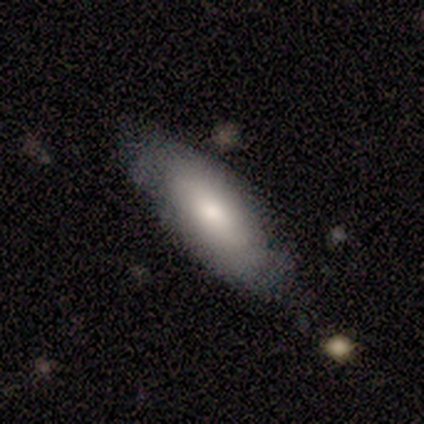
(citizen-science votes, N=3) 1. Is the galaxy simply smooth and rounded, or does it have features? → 33% smooth (tied), 33% featured or disk (tied), 33% star or artifact (tied).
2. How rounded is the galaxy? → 100% cigar-shaped, 0% round, 0% in between.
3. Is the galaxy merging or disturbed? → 50% none (tied), 50% minor disturbance (tied), 0% major disturbance, 0% merger.